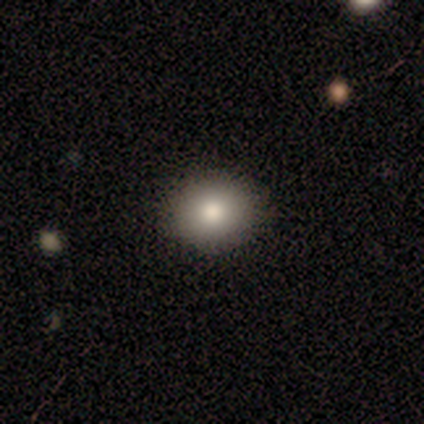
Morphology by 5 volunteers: Smooth or featured?
  - smooth: 100% *
  - featured or disk: 0%
  - star or artifact: 0%
How rounded?
  - in between: 60% *
  - round: 40%
  - cigar-shaped: 0%
Merging?
  - none: 100% *
  - minor disturbance: 0%
  - major disturbance: 0%
  - merger: 0%